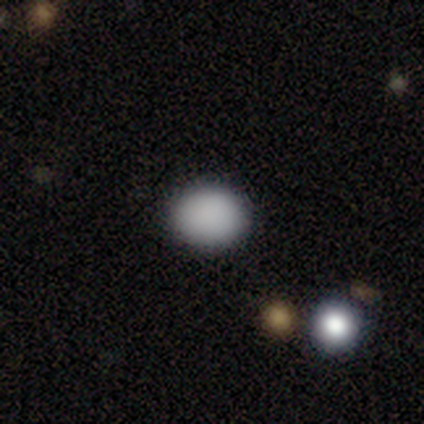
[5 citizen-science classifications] Smooth or featured? 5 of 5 (100%) said smooth. How rounded? 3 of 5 (60%) said round. Merging? 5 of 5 (100%) said none.